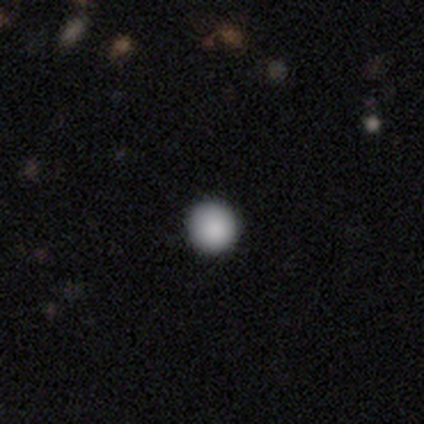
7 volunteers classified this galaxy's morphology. smooth 86%, star or artifact 14%, featured or disk 0%. Down the decision tree: how rounded — round (100%); merging — none (100%).